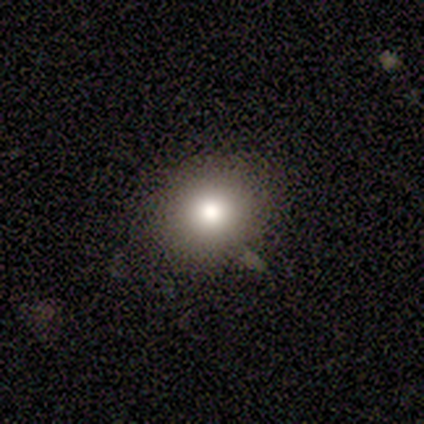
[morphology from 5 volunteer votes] Smooth or featured? 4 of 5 (80%) said smooth. How rounded? 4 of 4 (100%) said round. Merging? 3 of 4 (75%) said none.